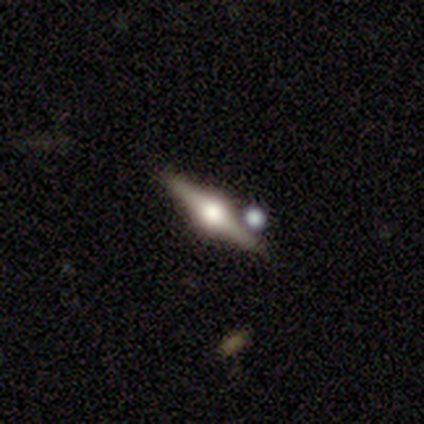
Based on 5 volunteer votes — This is likely a featured or disk galaxy (60%). It is clearly viewed edge-on (100%). Edge-on bulge: clearly rounded (100%). Merging: likely none (75%).